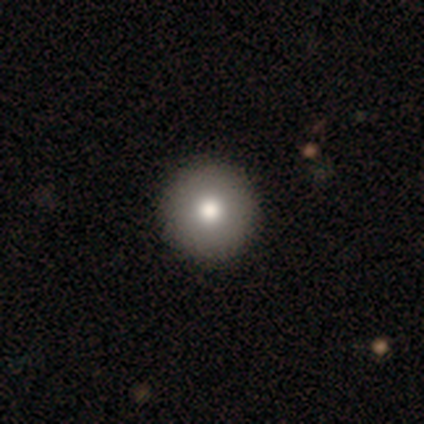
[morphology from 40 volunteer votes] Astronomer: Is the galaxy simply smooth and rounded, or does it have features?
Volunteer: smooth — 88%.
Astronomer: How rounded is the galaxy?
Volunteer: round — 100%.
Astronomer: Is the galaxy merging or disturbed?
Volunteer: none — 65%.